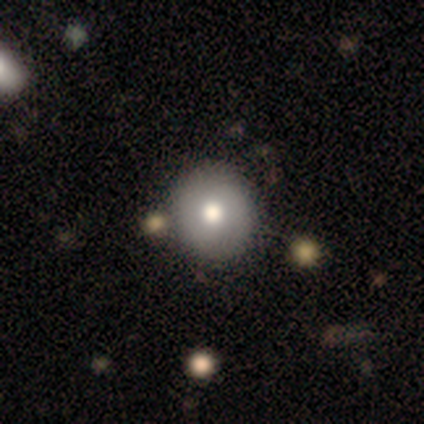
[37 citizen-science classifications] Smooth or featured? smooth (73%)
How rounded? round (93%)
Merging? none (57%)